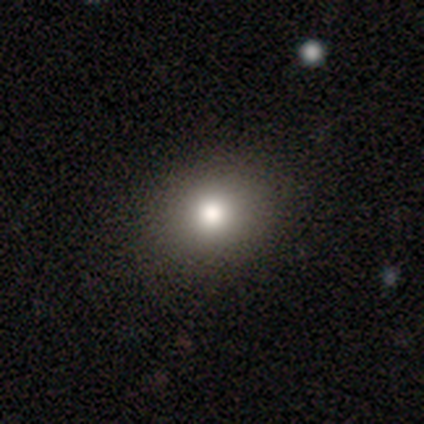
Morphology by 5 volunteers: Volunteers were most divided on "smooth or featured": smooth: 60%, featured or disk: 20%, star or artifact: 20%. More confident: how rounded — in between (100%); merging — none (100%).